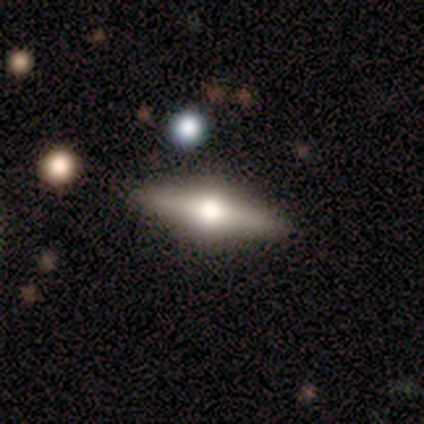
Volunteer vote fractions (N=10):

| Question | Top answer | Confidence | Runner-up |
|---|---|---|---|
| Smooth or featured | featured or disk | 70% | smooth (20%) |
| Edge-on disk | yes | 86% | no (14%) |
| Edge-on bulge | rounded | 100% | — |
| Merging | none | 78% | minor disturbance (22%) |